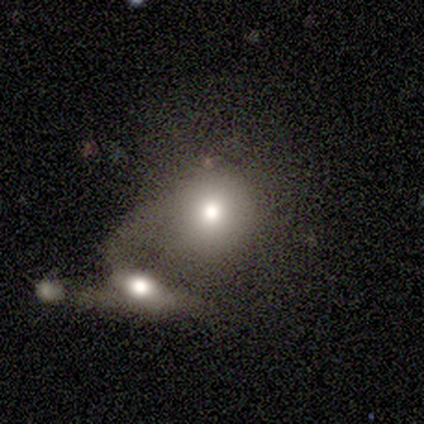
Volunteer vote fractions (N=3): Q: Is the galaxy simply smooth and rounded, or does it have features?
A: smooth — 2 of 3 (67%).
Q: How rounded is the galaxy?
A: round — 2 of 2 (100%).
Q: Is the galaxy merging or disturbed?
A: merger — 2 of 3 (67%).